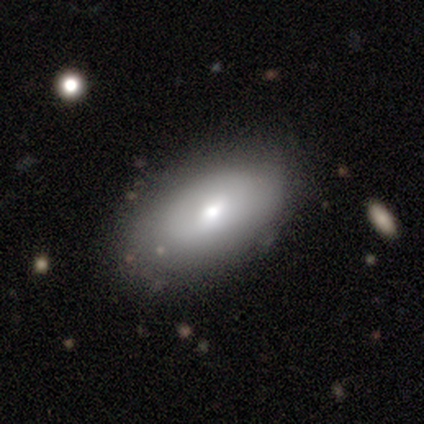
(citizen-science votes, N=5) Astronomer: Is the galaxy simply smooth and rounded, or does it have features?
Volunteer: featured or disk — 80%.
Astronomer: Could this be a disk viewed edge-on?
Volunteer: no — 75%.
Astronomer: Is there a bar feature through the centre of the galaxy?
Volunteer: no — 67%.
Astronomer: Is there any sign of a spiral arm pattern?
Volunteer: no — 100%.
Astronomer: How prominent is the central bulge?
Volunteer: moderate — 100%.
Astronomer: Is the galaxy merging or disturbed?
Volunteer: none — 80%.